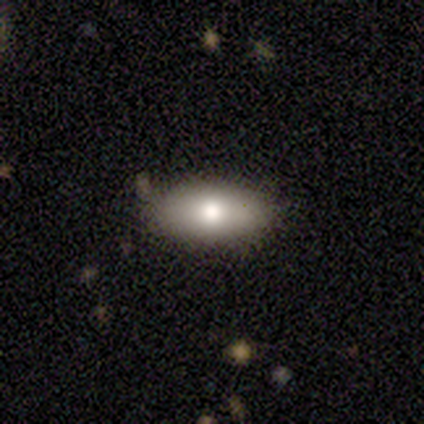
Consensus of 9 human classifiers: A smooth galaxy with no disk features (78%) that is in between round and cigar-shaped (71%).

Vote fractions:
- Smooth or featured? smooth: 78% / featured or disk: 11% / star or artifact: 11%
- How rounded? in between: 71% / cigar-shaped: 29% / round: 0%
- Merging? none: 100% / minor disturbance: 0% / major disturbance: 0% / merger: 0%